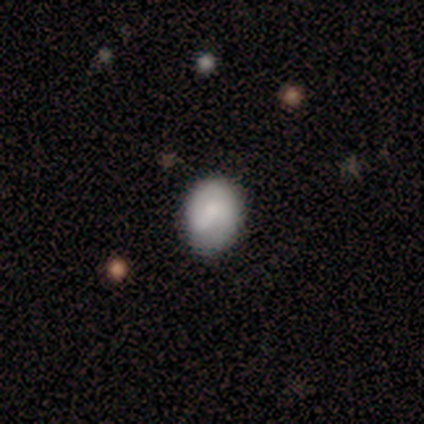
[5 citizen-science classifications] A smooth galaxy with no disk features (60%) that is round (100%). Merging: none (80%).